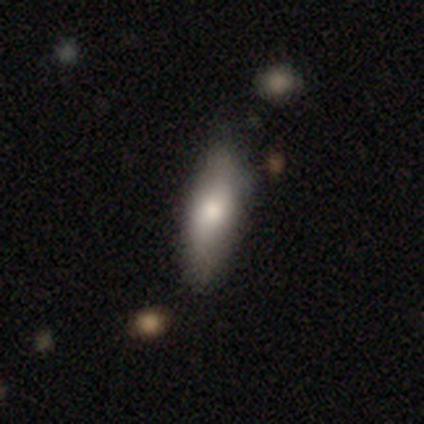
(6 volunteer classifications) Smooth or featured: smooth — 50% (tied with featured or disk — 50%)
How rounded: in between — 67% (cigar-shaped — 33%)
Merging: none — 67% (minor disturbance — 33%)